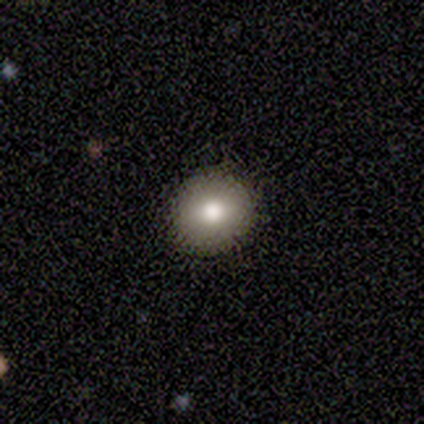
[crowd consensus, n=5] This is clearly a smooth galaxy (80%). How rounded: clearly round (100%). Merging: clearly none (100%).